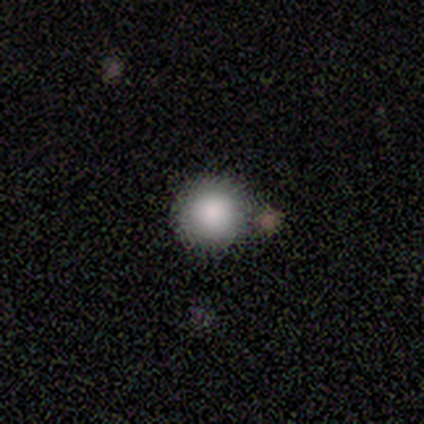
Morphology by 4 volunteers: Volunteers were most divided on "merging": none: 67%, minor disturbance: 33%, major disturbance: 0%, merger: 0%. More confident: how rounded — round (100%); smooth or featured — smooth (75%).